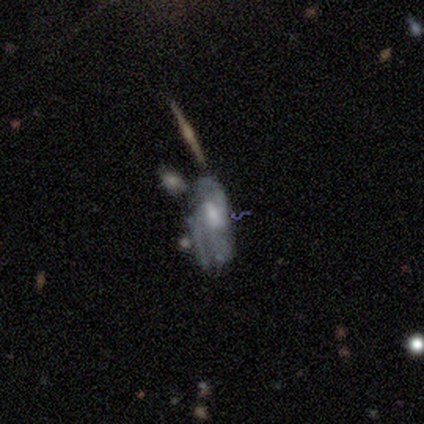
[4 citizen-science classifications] Volunteers were most divided on "spiral arm count" (3-way tie): 2: 33%, 3: 33%, can't tell: 33%, 1: 0%, 4: 0%, more than 4: 0%; "merging" (2-way tie): none: 50%, major disturbance: 50%, minor disturbance: 0%, merger: 0%. More confident: edge-on disk — no (100%); bar — weak (100%); spiral arms — yes (100%); bulge size — moderate (100%); smooth or featured — featured or disk (75%); spiral winding — medium (67%).